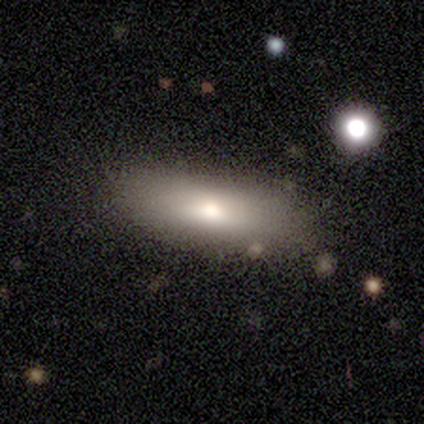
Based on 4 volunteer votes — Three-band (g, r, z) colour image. It shows a smooth galaxy with no disk features (75%) that is cigar-shaped (67%). Merging: none (75%).